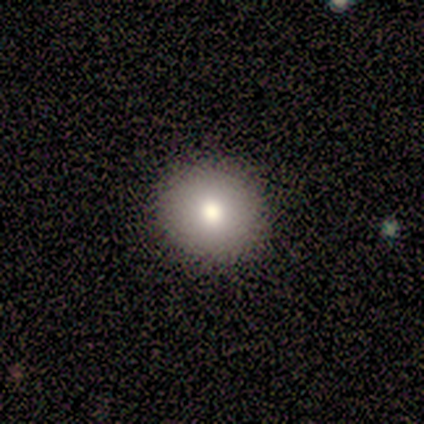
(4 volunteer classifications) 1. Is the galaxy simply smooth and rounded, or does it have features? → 100% smooth, 0% featured or disk, 0% star or artifact.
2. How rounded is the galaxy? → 100% round, 0% in between, 0% cigar-shaped.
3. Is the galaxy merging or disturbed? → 100% none, 0% minor disturbance, 0% major disturbance, 0% merger.